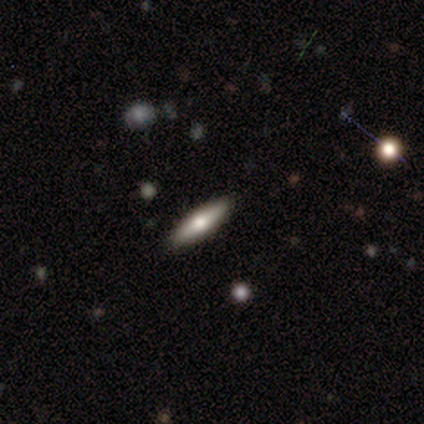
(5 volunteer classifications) A smooth galaxy with no disk features (60%) that is cigar-shaped (67%). Merging: none (80%).